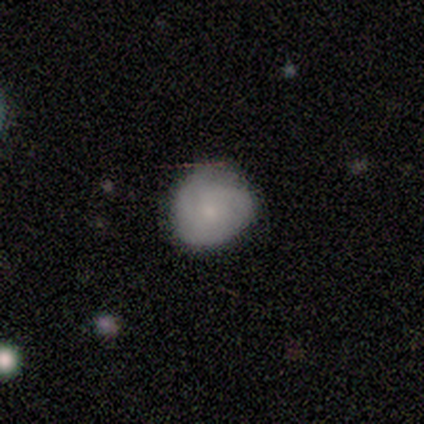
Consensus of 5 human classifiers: Overall: smooth (100%). How rounded: round (100%). Merging: none (80%).